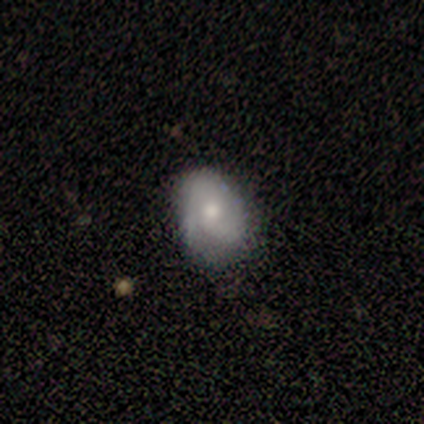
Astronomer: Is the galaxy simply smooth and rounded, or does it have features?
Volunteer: featured or disk — 71%.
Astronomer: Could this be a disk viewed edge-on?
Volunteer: no — 100%.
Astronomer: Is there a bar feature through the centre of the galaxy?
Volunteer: no — 100%.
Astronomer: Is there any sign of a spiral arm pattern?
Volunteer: no — 60% (runner-up: yes, 40%).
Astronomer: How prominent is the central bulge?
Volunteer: small — 80%.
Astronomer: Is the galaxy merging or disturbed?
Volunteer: none — 57% (runner-up: minor disturbance, 43%).